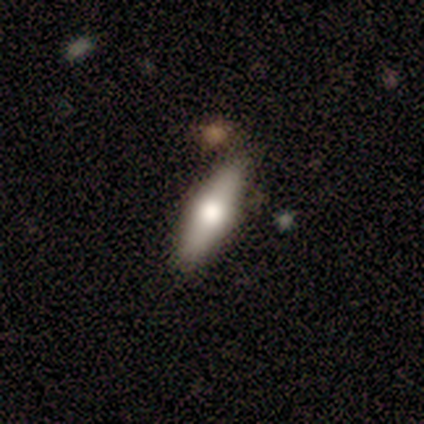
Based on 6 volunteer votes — Overall: smooth (83%). How rounded: cigar-shaped (80%). Merging: none (100%).